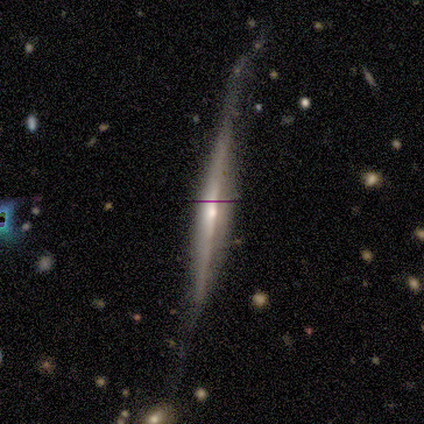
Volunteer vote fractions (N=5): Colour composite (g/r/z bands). It shows a featured or disk galaxy (100%) viewed edge-on (100%) with a rounded central bulge (80%). Merging: none (60%).